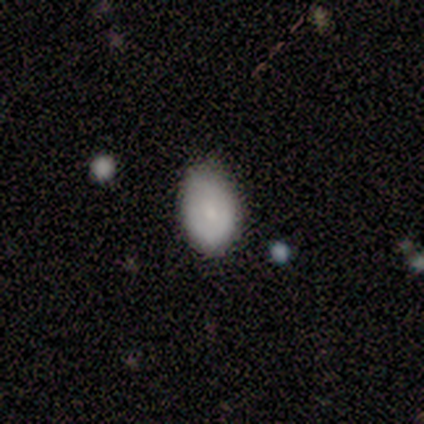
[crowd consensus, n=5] A smooth galaxy with no disk features (60%) that is in between round and cigar-shaped (100%). Merging: minor disturbance (60%).